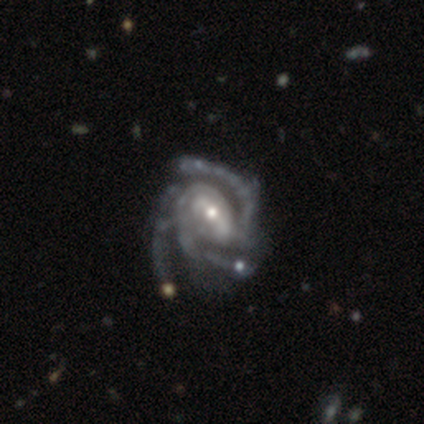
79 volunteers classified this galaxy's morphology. Volunteers were most divided on "bar": weak: 37%, strong: 36%, no: 27%. More confident: edge-on disk — no (99%); spiral arms — yes (99%); smooth or featured — featured or disk (94%); spiral arm count — 3 (85%); merging — none (63%); spiral winding — tight (56%); bulge size — small (55%).